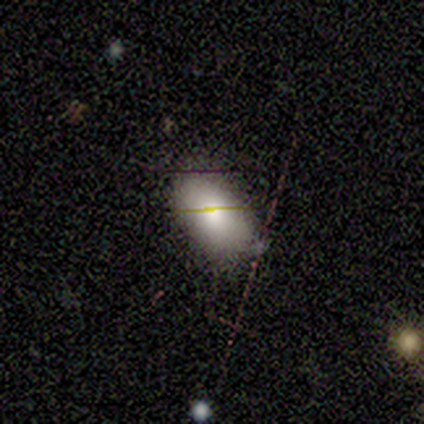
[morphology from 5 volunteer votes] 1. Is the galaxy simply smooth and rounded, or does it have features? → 100% smooth, 0% featured or disk, 0% star or artifact.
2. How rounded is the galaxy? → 100% in between, 0% round, 0% cigar-shaped.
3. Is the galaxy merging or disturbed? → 60% minor disturbance, 40% none, 0% major disturbance, 0% merger.